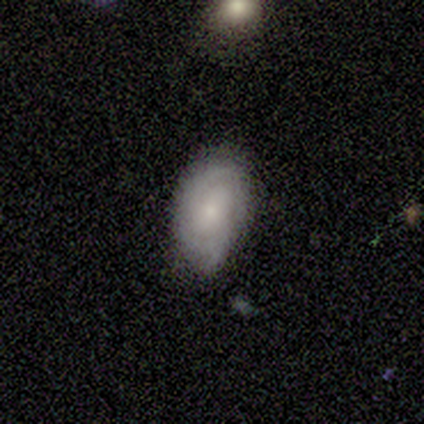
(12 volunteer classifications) Q: Smooth or featured?
A: featured or disk (50%); runner-up: smooth (42%)
Q: Edge-on disk?
A: no (100%)
Q: Bar?
A: no (50%); runner-up: weak (33%)
Q: Spiral arms?
A: yes (67%); runner-up: no (33%)
Q: Spiral winding?
A: tight (50%); tied with: medium (50%)
Q: Spiral arm count?
A: 2 (75%); runner-up: can't tell (25%)
Q: Bulge size?
A: small (67%); runner-up: moderate (33%)
Q: Merging?
A: none (55%); runner-up: minor disturbance (36%)